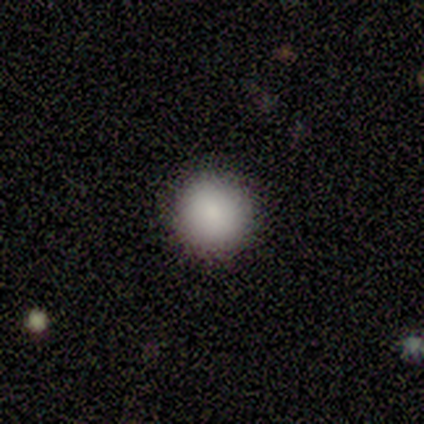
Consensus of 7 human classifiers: This is clearly a smooth galaxy (100%). How rounded: clearly round (100%). Merging: clearly none (86%).